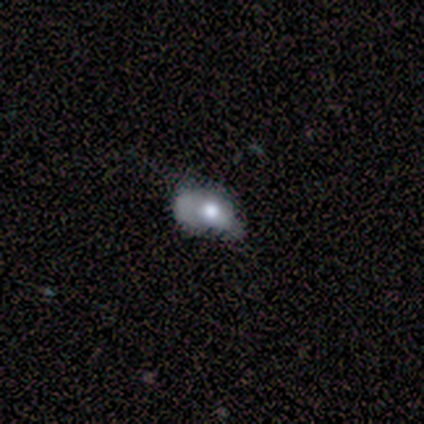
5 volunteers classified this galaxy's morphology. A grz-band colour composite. It shows a smooth galaxy with no disk features (40%, tied with featured or disk) that is in between round and cigar-shaped (100%). Merging: major disturbance (100%).